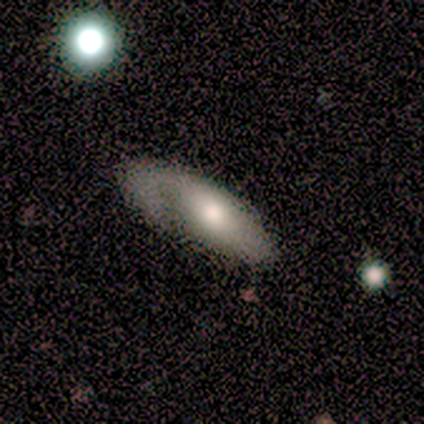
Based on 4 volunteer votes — Q: Smooth or featured?
A: smooth (75%); runner-up: star or artifact (25%)
Q: How rounded?
A: in between (100%)
Q: Merging?
A: major disturbance (67%); runner-up: none (33%)